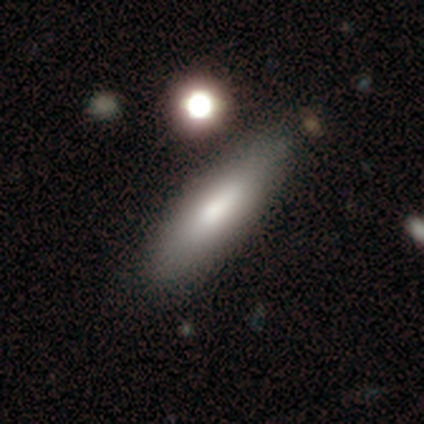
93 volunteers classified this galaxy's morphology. Smooth or featured? smooth (74%)
How rounded? cigar-shaped (67%)
Merging? none (79%)